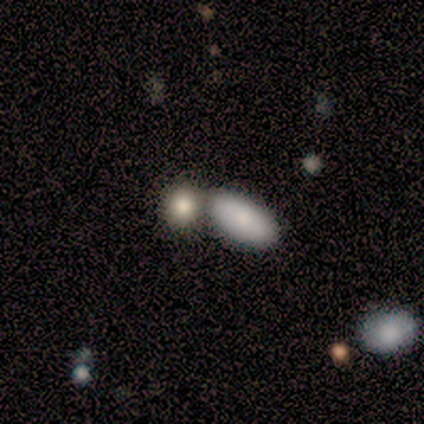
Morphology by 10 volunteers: Overall: smooth (80%). How rounded: in between (62%; round 25%). Merging: none (40%, tied with merger).